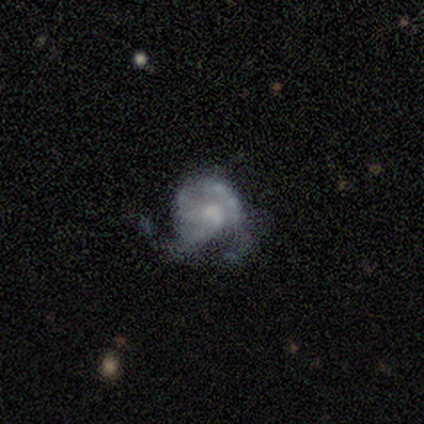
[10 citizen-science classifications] Smooth or featured? featured or disk (80%)
Edge-on disk? no (100%)
Bar? no (75%)
Spiral arms? yes (88%)
Spiral winding? tight (43%)
Spiral arm count? 2 (29%, tied with 3 and can't tell)
Bulge size? small (62%)
Merging? major disturbance (62%)